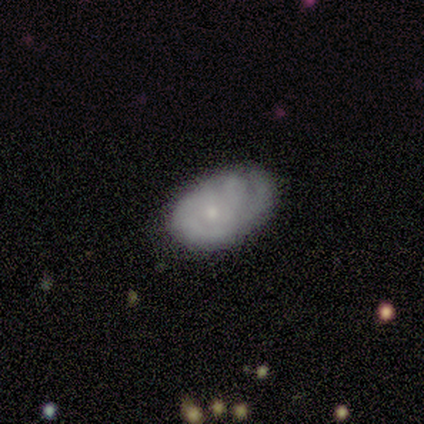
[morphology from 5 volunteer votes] Overall: featured or disk (80%). Edge-on disk: no (100%). Bar: no (100%). Spiral arms: yes (50%, tied with no). Spiral arm count: 3 (50%, tied with can't tell). Spiral winding: medium (100%). Bulge size: small (75%). Merging: none (60%; minor disturbance 40%).